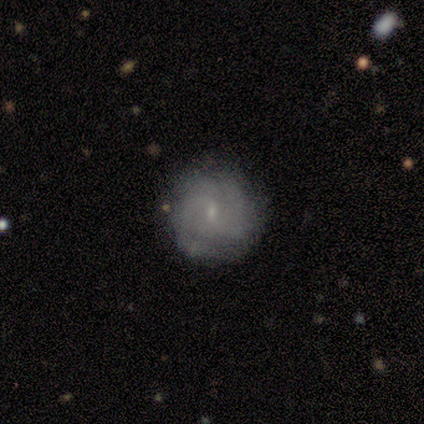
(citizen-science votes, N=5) Volunteers were most divided on "spiral winding": medium: 50%, tight: 25%, loose: 25%. More confident: edge-on disk — no (100%); spiral arms — yes (100%); merging — none (100%); smooth or featured — featured or disk (80%); bar — weak (75%); bulge size — small (75%); spiral arm count — can't tell (50%).